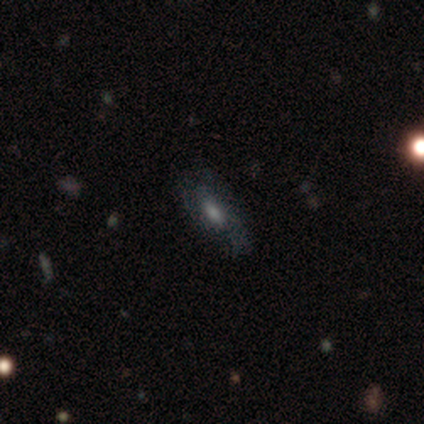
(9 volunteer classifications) Smooth or featured: smooth — 56% (featured or disk — 33%)
How rounded: in between — 80% (cigar-shaped — 20%)
Merging: none — 62% (major disturbance — 38%)